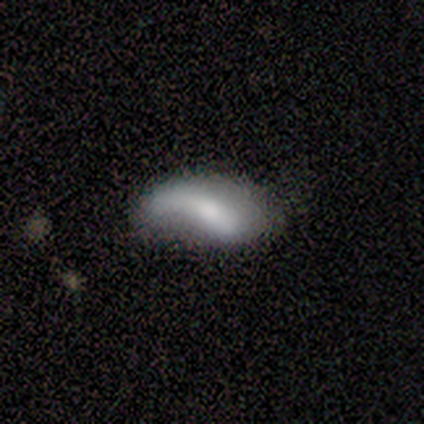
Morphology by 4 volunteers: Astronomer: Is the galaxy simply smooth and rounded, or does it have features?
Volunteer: featured or disk — 75%.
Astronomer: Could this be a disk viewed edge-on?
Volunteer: no — 67%.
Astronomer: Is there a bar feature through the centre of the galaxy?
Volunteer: strong — 50%, tied with weak at 50%.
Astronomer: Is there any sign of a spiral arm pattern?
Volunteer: yes — 100%.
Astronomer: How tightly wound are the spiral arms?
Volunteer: loose — 100%.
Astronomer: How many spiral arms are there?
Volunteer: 1 — 100%.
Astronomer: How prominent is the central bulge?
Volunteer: moderate — 50%, tied with none at 50%.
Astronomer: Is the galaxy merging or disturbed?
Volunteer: none — 50%.